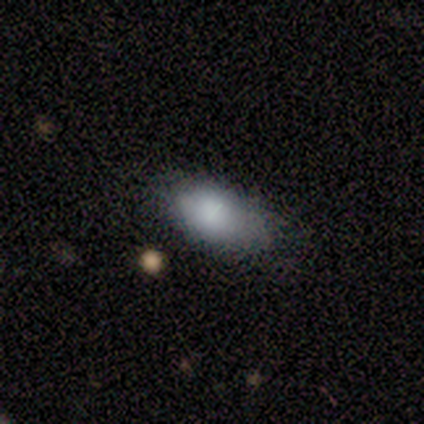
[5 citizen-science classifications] Q: Smooth or featured?
A: smooth (80%); runner-up: featured or disk (20%)
Q: How rounded?
A: in between (100%)
Q: Merging?
A: none (60%); runner-up: minor disturbance (40%)